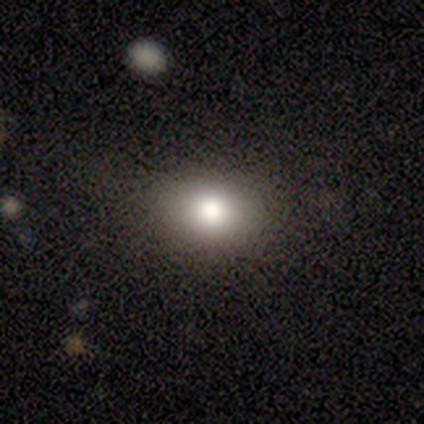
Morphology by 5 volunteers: type=smooth (60%); roundness=in between (67%); merging=none (100%).